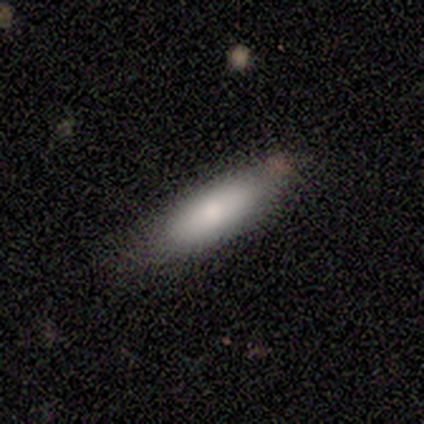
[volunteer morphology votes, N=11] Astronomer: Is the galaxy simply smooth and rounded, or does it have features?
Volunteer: smooth — 91%.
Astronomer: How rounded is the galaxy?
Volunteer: cigar-shaped — 60% (runner-up: in between, 40%).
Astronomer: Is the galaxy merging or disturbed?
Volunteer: none — 82%.